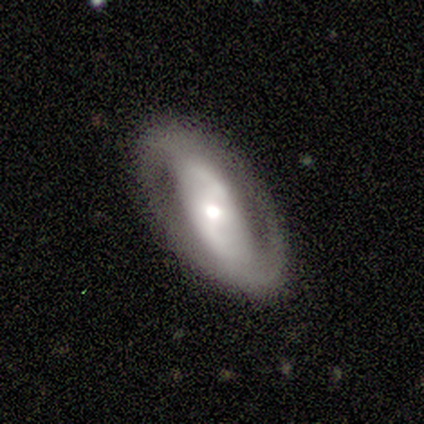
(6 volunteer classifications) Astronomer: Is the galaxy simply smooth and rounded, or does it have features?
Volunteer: featured or disk — 83%.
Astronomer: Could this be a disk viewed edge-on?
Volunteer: no — 80%.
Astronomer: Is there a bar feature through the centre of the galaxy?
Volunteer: no — 75%.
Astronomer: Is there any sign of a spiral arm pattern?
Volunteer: yes — 75%.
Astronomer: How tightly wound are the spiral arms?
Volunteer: tight — 67%.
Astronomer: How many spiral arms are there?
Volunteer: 2 — 67%.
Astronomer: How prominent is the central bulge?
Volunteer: moderate — 50%, tied with small at 50%.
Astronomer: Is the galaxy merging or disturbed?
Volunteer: none — 67%.